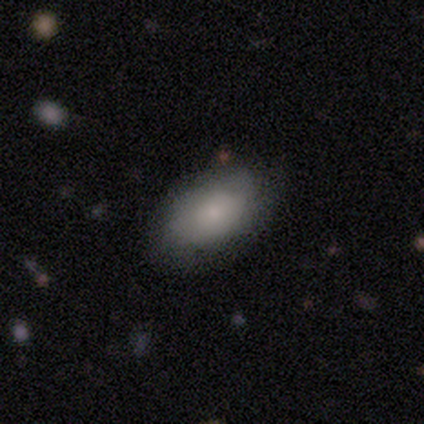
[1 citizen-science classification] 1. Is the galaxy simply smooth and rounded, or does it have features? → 100% smooth, 0% featured or disk, 0% star or artifact.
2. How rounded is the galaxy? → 100% in between, 0% round, 0% cigar-shaped.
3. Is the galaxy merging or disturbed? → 100% none, 0% minor disturbance, 0% major disturbance, 0% merger.